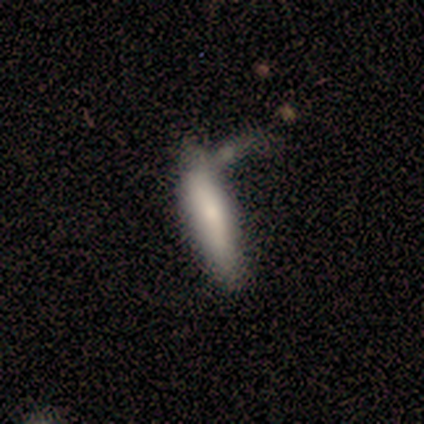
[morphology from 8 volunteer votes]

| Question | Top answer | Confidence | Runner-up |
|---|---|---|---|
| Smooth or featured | smooth | 75% | featured or disk (25%) |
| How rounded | cigar-shaped | 83% | in between (17%) |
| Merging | none | 50% | merger (25%) |